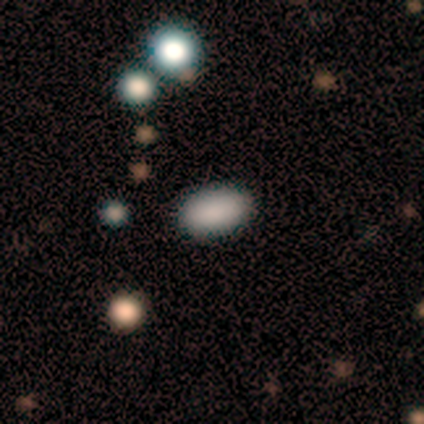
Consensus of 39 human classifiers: smooth_or_featured: smooth (p=0.85) [alt: star or artifact p=0.10]
how_rounded: in between (p=0.94) [alt: round p=0.06]
merging: none (p=0.89) [alt: minor disturbance p=0.09]